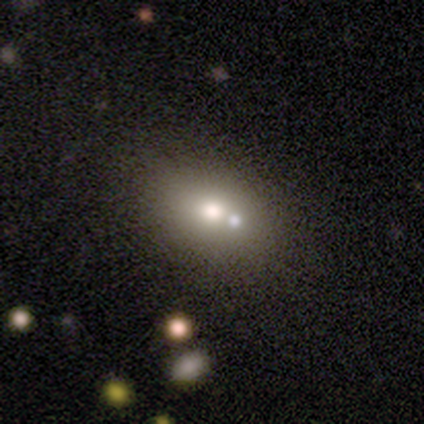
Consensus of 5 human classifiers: A smooth galaxy with no disk features (100%) that is round (60%). Merging: none (60%).